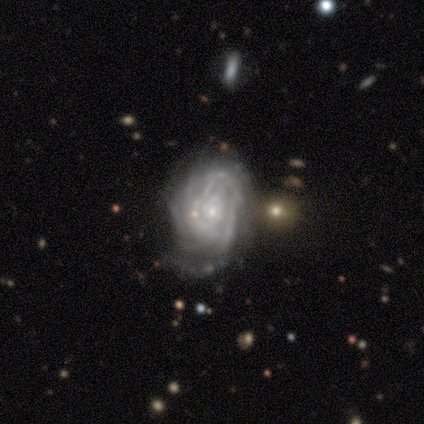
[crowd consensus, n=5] Smooth or featured? 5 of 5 (100%) said featured or disk. Edge-on disk? 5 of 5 (100%) said no. Bar? 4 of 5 (80%) said no. Spiral arms? 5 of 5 (100%) said yes. Spiral winding? 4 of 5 (80%) said tight. Spiral arm count? 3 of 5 (60%) said 4. Bulge size? 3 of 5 (60%) said small. Merging? 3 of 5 (60%) said none.